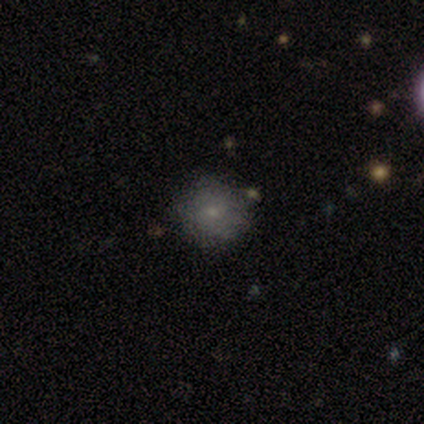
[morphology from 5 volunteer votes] A smooth galaxy with no disk features (60%) that is round (100%). Merging: none (75%).